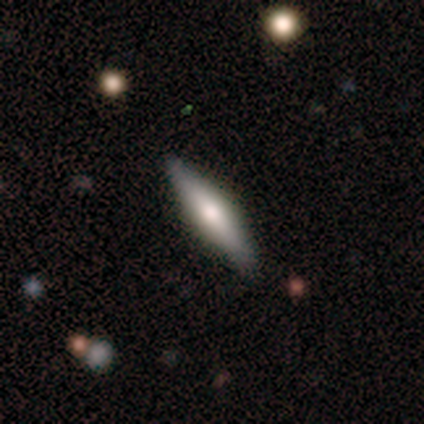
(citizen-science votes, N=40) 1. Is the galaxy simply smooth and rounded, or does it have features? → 48% featured or disk, 42% smooth, 10% star or artifact.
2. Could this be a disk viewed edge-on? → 100% yes, 0% no.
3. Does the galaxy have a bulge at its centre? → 84% rounded, 11% boxy, 5% none.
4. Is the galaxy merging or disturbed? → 86% none, 11% minor disturbance, 3% merger, 0% major disturbance.